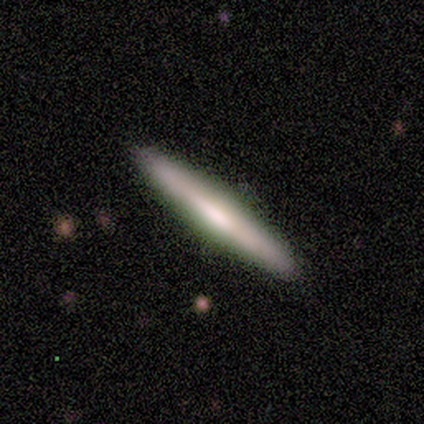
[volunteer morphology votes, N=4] A smooth galaxy with no disk features (50%, tied with featured or disk) that is in between round and cigar-shaped (50%, tied with cigar-shaped). Merging: none (75%).